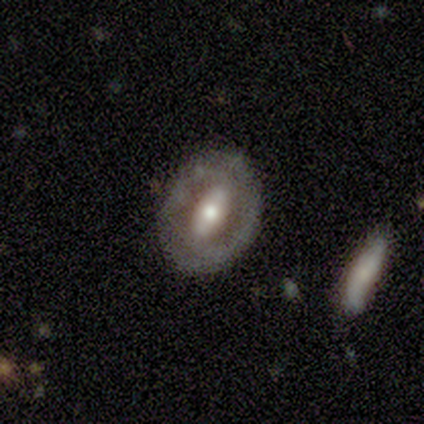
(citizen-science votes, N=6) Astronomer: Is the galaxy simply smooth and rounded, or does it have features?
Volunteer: featured or disk — 83%.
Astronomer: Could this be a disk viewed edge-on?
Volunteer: no — 100%.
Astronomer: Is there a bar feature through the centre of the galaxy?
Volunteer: strong — 80%.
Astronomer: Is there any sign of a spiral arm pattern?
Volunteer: no — 60% (runner-up: yes, 40%).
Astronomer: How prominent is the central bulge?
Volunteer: large — 40%, tied with moderate at 40%.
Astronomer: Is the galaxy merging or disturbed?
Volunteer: none — 100%.